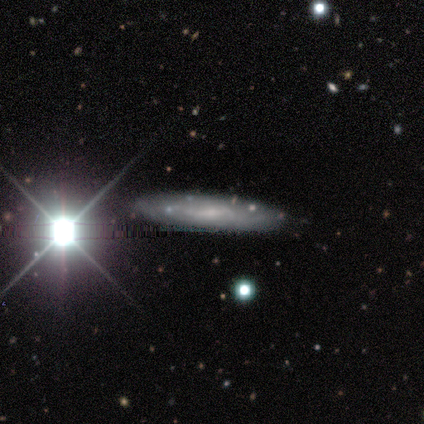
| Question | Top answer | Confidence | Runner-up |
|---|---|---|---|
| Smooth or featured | smooth | 60% | featured or disk (40%) |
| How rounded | cigar-shaped | 67% | in between (33%) |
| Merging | none | 80% | minor disturbance (20%) |